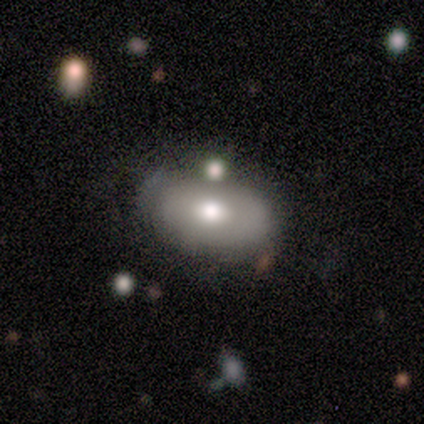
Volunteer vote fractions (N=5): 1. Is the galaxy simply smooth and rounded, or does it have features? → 80% smooth, 20% featured or disk, 0% star or artifact.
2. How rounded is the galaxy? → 100% in between, 0% round, 0% cigar-shaped.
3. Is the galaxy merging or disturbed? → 80% none, 20% minor disturbance, 0% major disturbance, 0% merger.